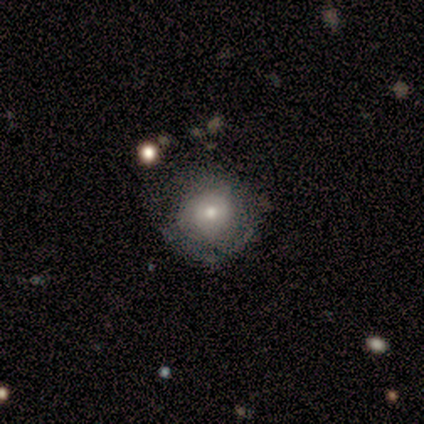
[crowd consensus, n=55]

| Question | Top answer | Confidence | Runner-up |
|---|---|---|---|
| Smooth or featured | smooth | 53% | featured or disk (45%) |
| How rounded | round | 86% | in between (14%) |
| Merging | none | 50% | minor disturbance (28%) |